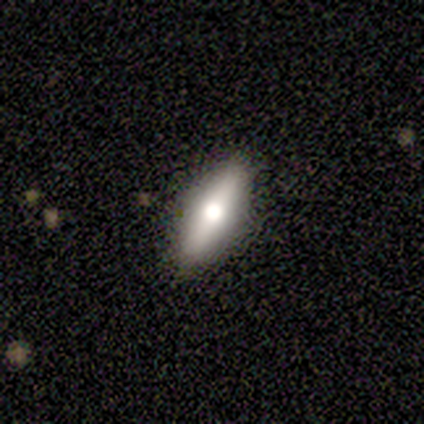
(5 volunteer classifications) featured or disk 60%, smooth 20%, star or artifact 20%. Down the decision tree: edge-on disk — yes (100%); edge-on bulge — rounded (100%); merging — none (100%).